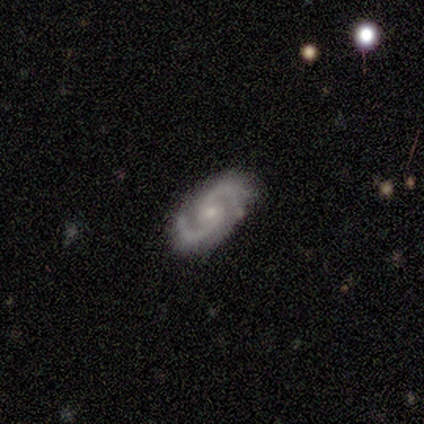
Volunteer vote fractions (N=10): Morphology: type=featured or disk (90%); edge-on=no (100%); bar=no (56%); spiral arms=yes (100%); winding=medium (67%); arm count=2 (89%); bulge=small (44%); merging=none (80%).